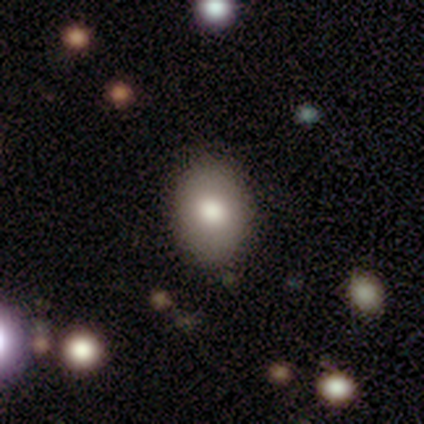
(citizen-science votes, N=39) Smooth or featured?
  - smooth: 82% *
  - featured or disk: 10%
  - star or artifact: 8%
How rounded?
  - in between: 75% *
  - round: 22%
  - cigar-shaped: 3%
Merging?
  - none: 92% *
  - minor disturbance: 8%
  - major disturbance: 0%
  - merger: 0%